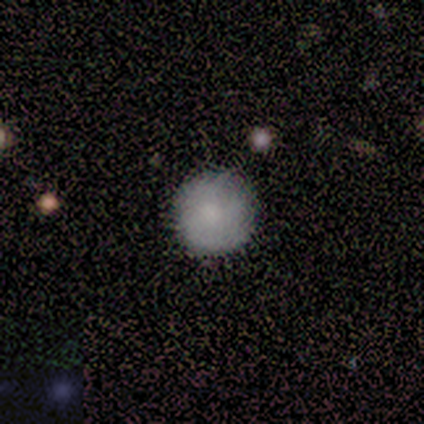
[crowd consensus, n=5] A smooth galaxy with no disk features (100%) that is round (100%). Merging: none (100%).